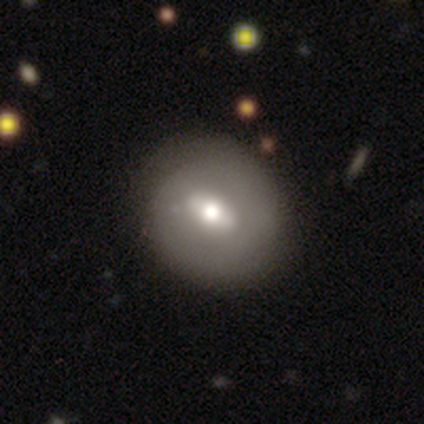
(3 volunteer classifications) smooth_or_featured: smooth (p=0.67) [alt: featured or disk p=0.33]
how_rounded: round (p=0.50) [tied with: in between p=0.50]
merging: none (p=0.67) [alt: major disturbance p=0.33]